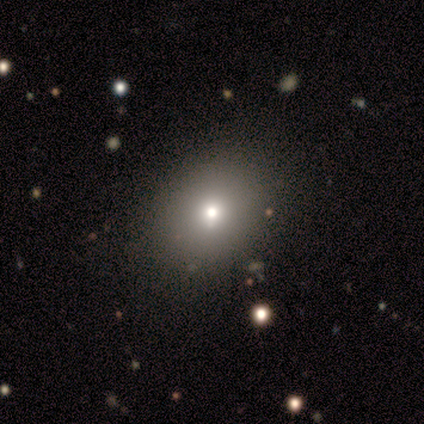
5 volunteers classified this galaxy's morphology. This is likely a smooth galaxy (60%). How rounded: likely in between (67%). Merging: clearly none (100%).